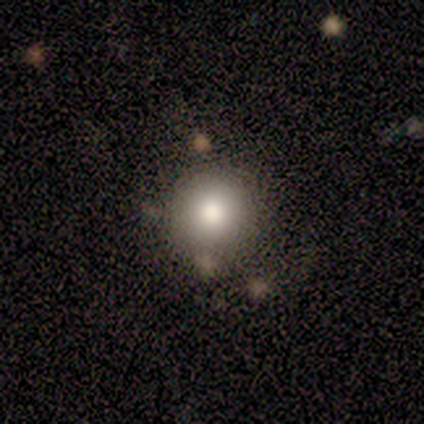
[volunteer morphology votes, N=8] Volunteers were most divided on "smooth or featured": smooth: 88%, featured or disk: 12%, star or artifact: 0%. More confident: how rounded — round (100%); merging — none (88%).